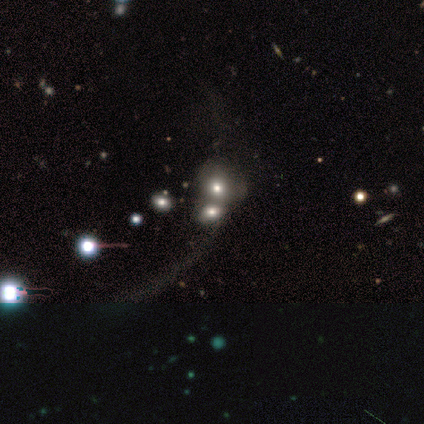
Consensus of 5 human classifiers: Morphology: type=smooth (60%); roundness=round (67%); merging=merger (75%).